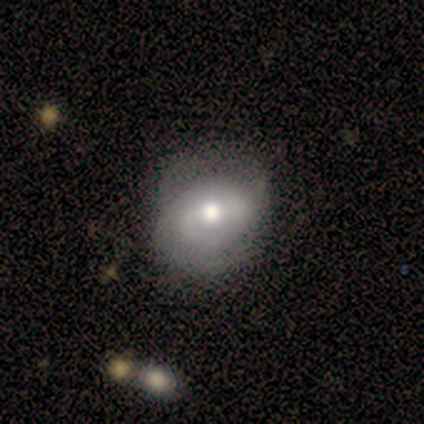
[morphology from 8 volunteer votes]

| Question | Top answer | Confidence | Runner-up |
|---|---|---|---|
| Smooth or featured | smooth | 50% | featured or disk (38%) |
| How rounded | round | 100% | — |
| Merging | none | 71% | minor disturbance (14%) |